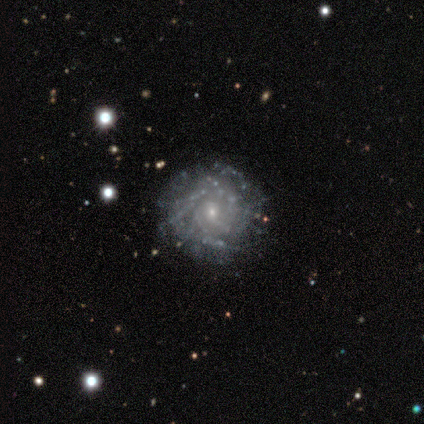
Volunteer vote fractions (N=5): A featured or disk galaxy (80%) with no bar (75%), 2 (50%, tied with 3) tight (100%) spiral arms (50%, tied with no) and a moderate central bulge (50%, tied with small). Merging: none (60%).